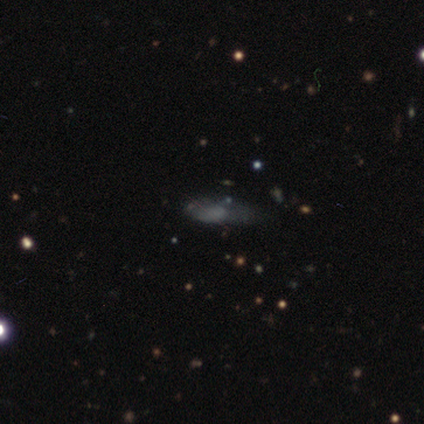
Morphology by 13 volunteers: This is likely a smooth galaxy (69%). How rounded: possibly in between (56%). Merging: likely none (73%).